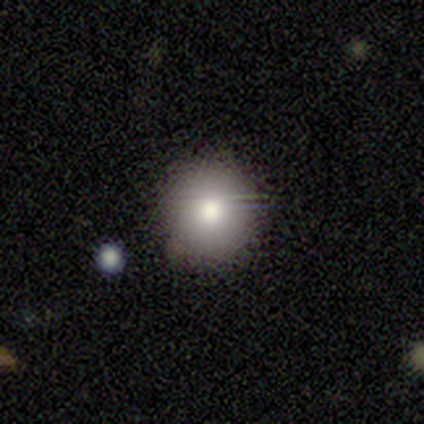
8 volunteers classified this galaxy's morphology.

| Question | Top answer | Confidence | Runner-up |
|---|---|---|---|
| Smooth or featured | smooth | 75% | featured or disk (12%) |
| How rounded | round | 100% | — |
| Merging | none | 71% | minor disturbance (29%) |